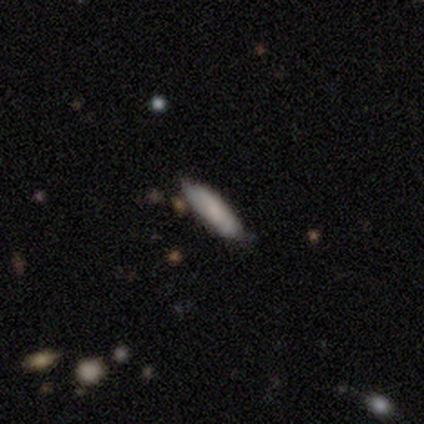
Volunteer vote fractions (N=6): A smooth galaxy with no disk features (100%) that is cigar-shaped (67%). Merging: none (67%).